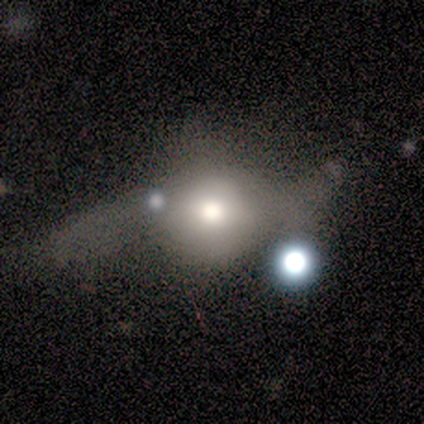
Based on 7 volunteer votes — Smooth or featured?
  - smooth: 43% * (tied)
  - featured or disk: 43% * (tied)
  - star or artifact: 14%
How rounded?
  - in between: 67% *
  - round: 33%
  - cigar-shaped: 0%
Merging?
  - major disturbance: 50% *
  - none: 17%
  - minor disturbance: 17%
  - merger: 17%